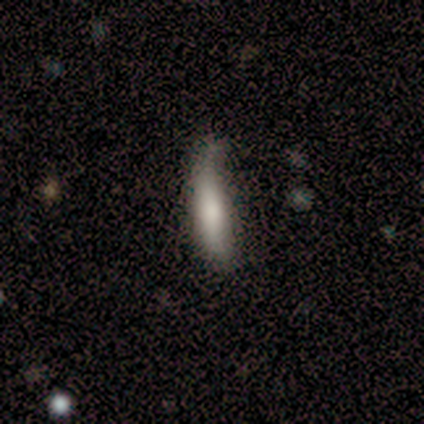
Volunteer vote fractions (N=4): Volunteers were most divided on "smooth or featured": smooth: 75%, featured or disk: 25%, star or artifact: 0%. More confident: how rounded — cigar-shaped (100%); merging — minor disturbance (75%).